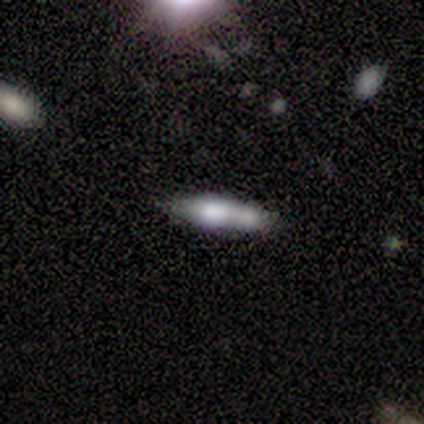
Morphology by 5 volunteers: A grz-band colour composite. It shows a smooth galaxy with no disk features (100%) that is cigar-shaped (60%). Merging: merger (40%).